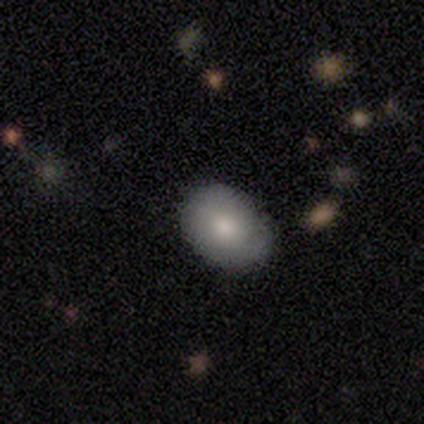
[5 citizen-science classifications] smooth-or-featured: smooth: 100% | featured or disk: 0% | star or artifact: 0%
  how-rounded: in between: 80% | round: 20% | cigar-shaped: 0%
  merging: none: 100% | minor disturbance: 0% | major disturbance: 0% | merger: 0%